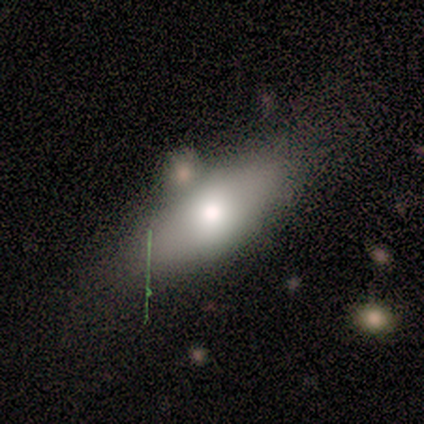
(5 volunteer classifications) Smooth or featured? smooth (60%)
How rounded? in between (67%)
Merging? none (80%)